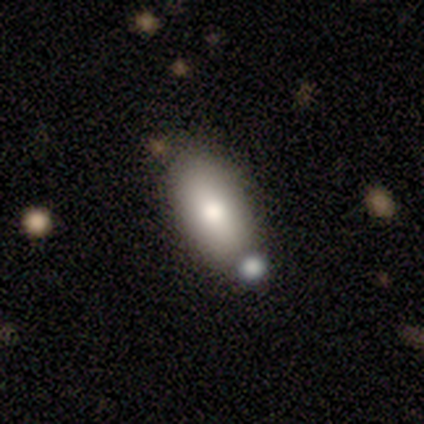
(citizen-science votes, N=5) Smooth or featured: smooth — 80% (star or artifact — 20%)
How rounded: in between — 100%
Merging: none — 50% (minor disturbance — 25%)